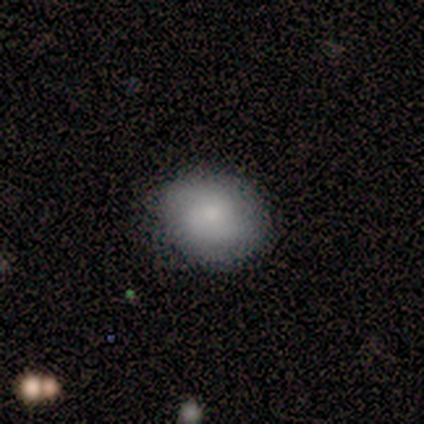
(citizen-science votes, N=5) Smooth or featured: smooth — 80% (featured or disk — 20%)
How rounded: in between — 75% (round — 25%)
Merging: none — 100%